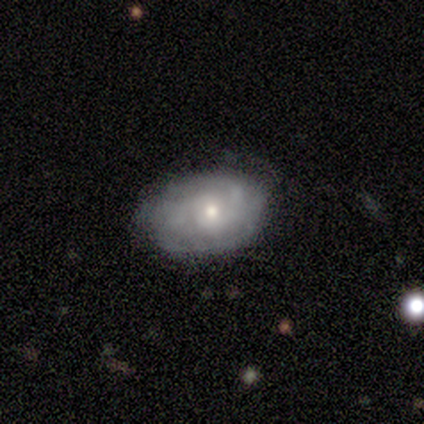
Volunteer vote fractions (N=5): smooth-or-featured: smooth: 40% (tied) | featured or disk: 40% (tied) | star or artifact: 20%
  how-rounded: in between: 100% | round: 0% | cigar-shaped: 0%
  merging: none: 75% | minor disturbance: 25% | major disturbance: 0% | merger: 0%